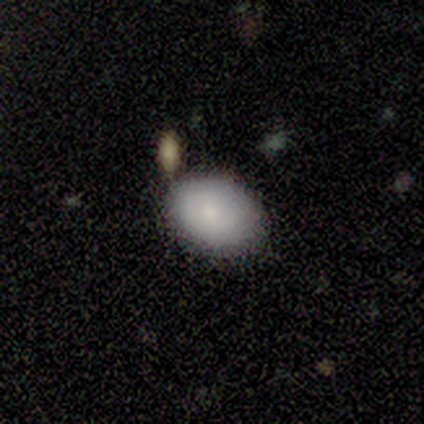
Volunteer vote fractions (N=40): Overall: smooth (78%). How rounded: in between (77%). Merging: none (76%).